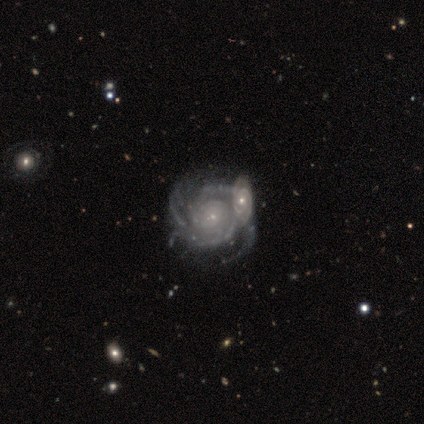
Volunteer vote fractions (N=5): smooth_or_featured: featured or disk (p=1.00)
disk_edge_on: no (p=0.80) [alt: yes p=0.20]
bar: no (p=0.75) [alt: weak p=0.25]
has_spiral_arms: yes (p=1.00)
spiral_winding: tight (p=1.00)
spiral_arm_count: 2 (p=0.25) [tied with: 3 p=0.25, more than 4 p=0.25, can't tell p=0.25]
bulge_size: small (p=0.75) [alt: none p=0.25]
merging: merger (p=0.80) [alt: none p=0.20]